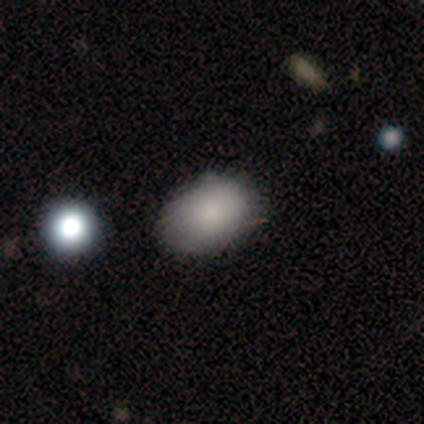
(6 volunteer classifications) A smooth galaxy with no disk features (83%) that is in between round and cigar-shaped (80%). Merging: none (100%).